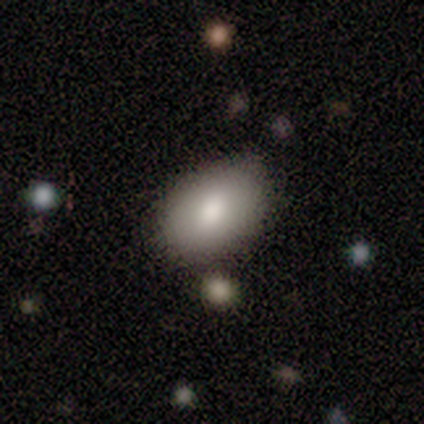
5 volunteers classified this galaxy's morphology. Smooth or featured?
  - smooth: 80% *
  - star or artifact: 20%
  - featured or disk: 0%
How rounded?
  - in between: 100% *
  - round: 0%
  - cigar-shaped: 0%
Merging?
  - none: 75% *
  - major disturbance: 25%
  - minor disturbance: 0%
  - merger: 0%